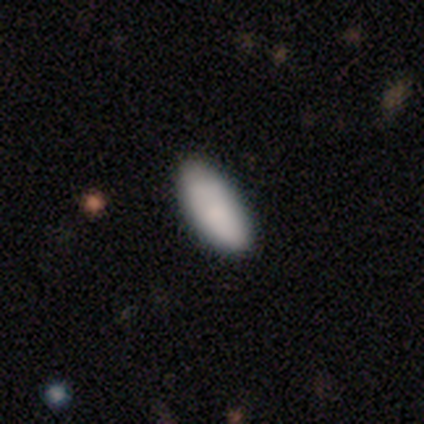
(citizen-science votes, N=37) Smooth or featured?
  - smooth: 86% *
  - featured or disk: 8%
  - star or artifact: 5%
How rounded?
  - in between: 81% *
  - cigar-shaped: 16%
  - round: 3%
Merging?
  - none: 80% *
  - minor disturbance: 17%
  - major disturbance: 3%
  - merger: 0%